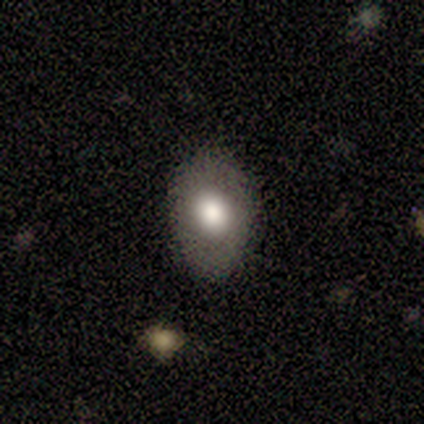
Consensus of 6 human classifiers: smooth-or-featured: smooth: 50% | featured or disk: 33% | star or artifact: 17%
  how-rounded: in between: 67% | round: 33% | cigar-shaped: 0%
  merging: none: 80% | major disturbance: 20% | minor disturbance: 0% | merger: 0%